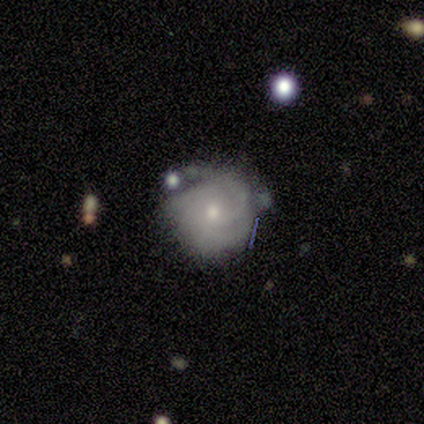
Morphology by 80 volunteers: A featured or disk galaxy (70%) with no bar (79%), tight (73%) spiral arms (88%) and a small central bulge (62%). Merging: none (52%).